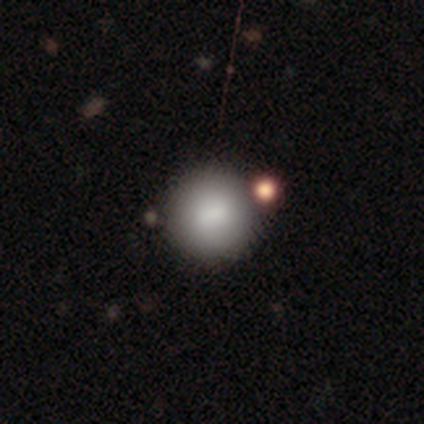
Morphology: type=smooth (78%); roundness=round (97%); merging=none (50%).